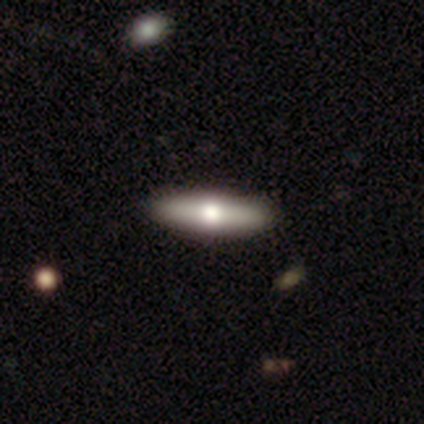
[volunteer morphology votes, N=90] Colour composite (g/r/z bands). It shows a smooth galaxy with no disk features (48%) that is cigar-shaped (70%). Merging: none (95%).